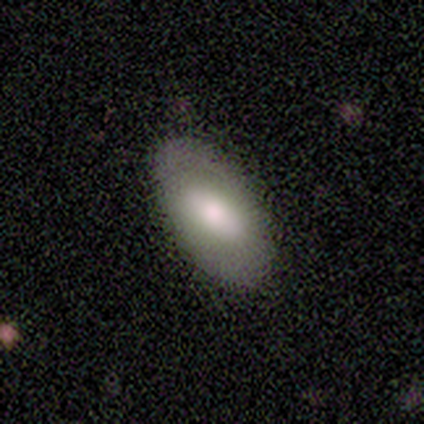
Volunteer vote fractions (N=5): Smooth or featured?
  - smooth: 60% *
  - featured or disk: 40%
  - star or artifact: 0%
How rounded?
  - in between: 100% *
  - round: 0%
  - cigar-shaped: 0%
Merging?
  - none: 60% *
  - minor disturbance: 40%
  - major disturbance: 0%
  - merger: 0%